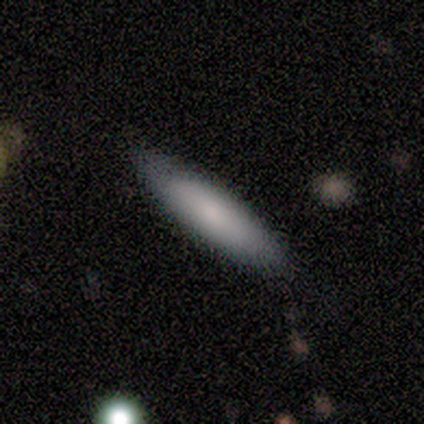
smooth 60%, featured or disk 20%, star or artifact 20%. Down the decision tree: how rounded — cigar-shaped (67%); merging — none (75%).